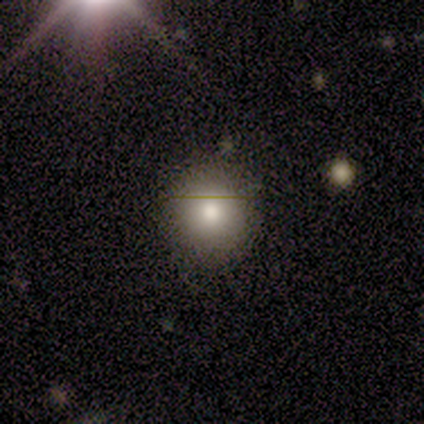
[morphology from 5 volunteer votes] Smooth or featured? smooth (100%)
How rounded? round (100%)
Merging? none (100%)